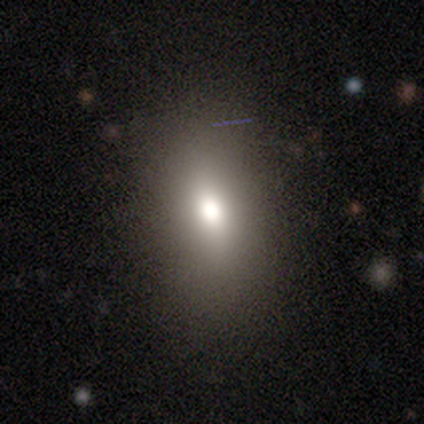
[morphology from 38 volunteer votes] Smooth or featured?
  - smooth: 79% *
  - star or artifact: 13%
  - featured or disk: 8%
How rounded?
  - in between: 90% *
  - round: 7%
  - cigar-shaped: 3%
Merging?
  - none: 61% *
  - minor disturbance: 6%
  - major disturbance: 3%
  - merger: 0%